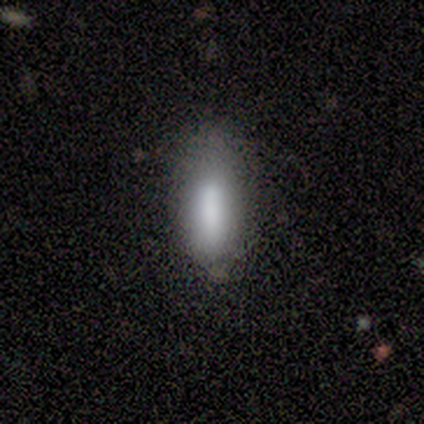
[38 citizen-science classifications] Smooth or featured? smooth (87%)
How rounded? in between (73%)
Merging? none (66%)